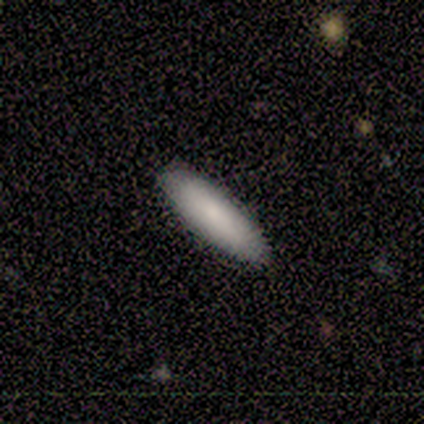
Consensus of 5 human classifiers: Q: Smooth or featured?
A: smooth (80%); runner-up: featured or disk (20%)
Q: How rounded?
A: cigar-shaped (100%)
Q: Merging?
A: none (80%); runner-up: major disturbance (20%)